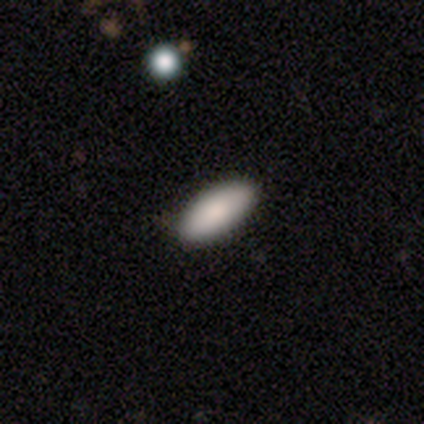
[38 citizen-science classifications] Smooth or featured? 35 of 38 (92%) said smooth. How rounded? 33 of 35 (94%) said in between. Merging? 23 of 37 (62%) said none.